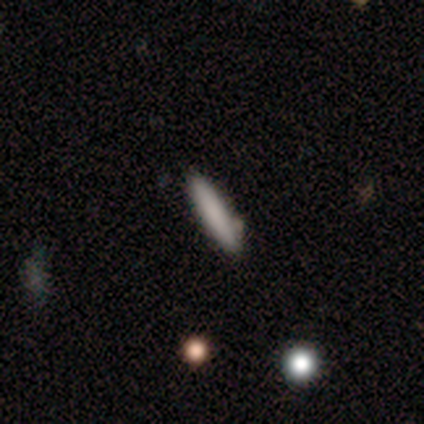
smooth-or-featured: smooth: 89% | featured or disk: 11% | star or artifact: 0%
  how-rounded: cigar-shaped: 88% | in between: 12% | round: 0%
  merging: none: 67% | minor disturbance: 22% | merger: 11% | major disturbance: 0%